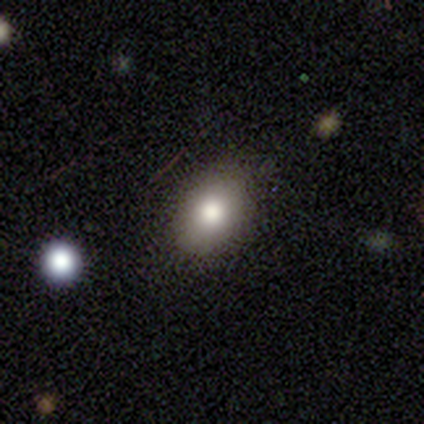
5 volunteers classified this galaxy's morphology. type=smooth (100%); roundness=round (60%); merging=none (100%).